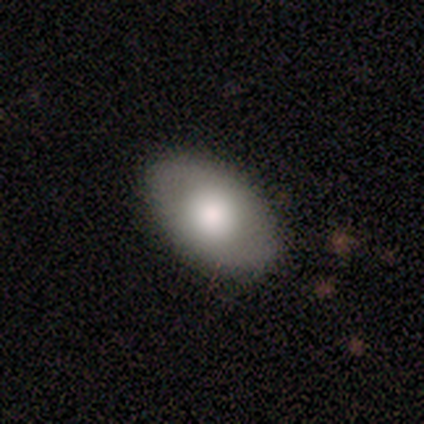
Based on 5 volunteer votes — This is clearly a smooth galaxy (100%). How rounded: clearly in between (100%). Merging: clearly none (80%).